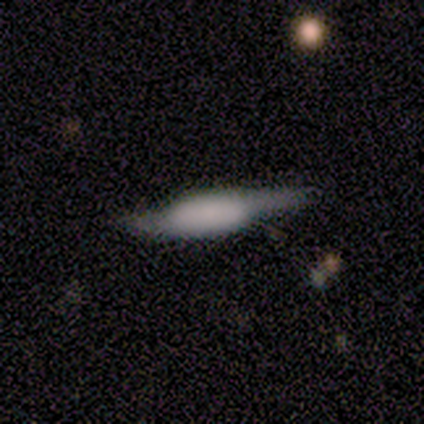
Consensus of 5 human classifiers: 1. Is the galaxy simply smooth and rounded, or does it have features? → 60% smooth, 40% featured or disk, 0% star or artifact.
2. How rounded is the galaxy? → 67% cigar-shaped, 33% in between, 0% round.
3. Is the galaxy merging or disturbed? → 40% none (tied), 40% minor disturbance (tied), 20% major disturbance, 0% merger.